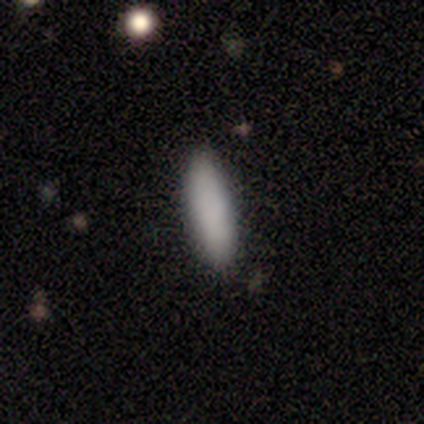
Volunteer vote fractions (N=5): Smooth or featured? 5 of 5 (100%) said smooth. How rounded? 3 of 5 (60%) said in between. Merging? 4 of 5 (80%) said none.